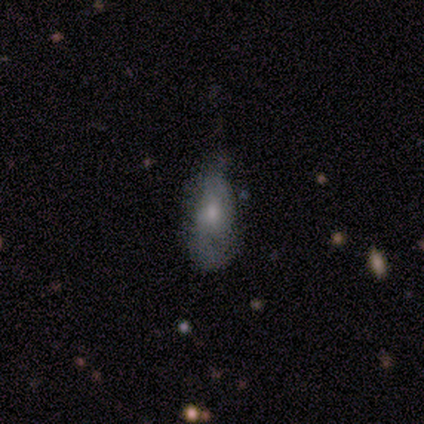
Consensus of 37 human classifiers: This appears to be a smooth galaxy with no disk features (46%) that is in between round and cigar-shaped (71%). Merging: minor disturbance (52%).